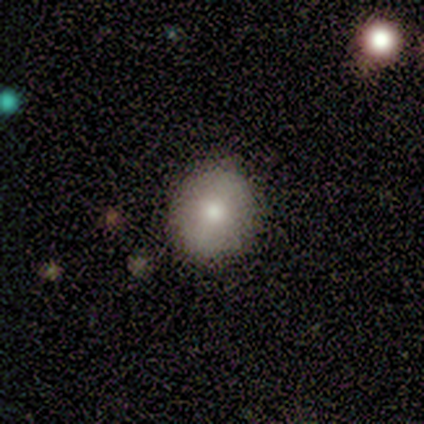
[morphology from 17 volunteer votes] Smooth or featured?
  - smooth: 82% *
  - featured or disk: 12%
  - star or artifact: 6%
How rounded?
  - round: 86% *
  - in between: 14%
  - cigar-shaped: 0%
Merging?
  - none: 94% *
  - minor disturbance: 6%
  - major disturbance: 0%
  - merger: 0%